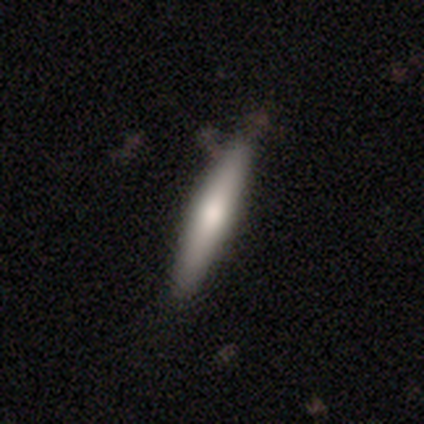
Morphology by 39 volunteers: Smooth or featured? featured or disk (51%)
Edge-on disk? yes (95%)
Edge-on bulge? rounded (79%)
Merging? none (72%)